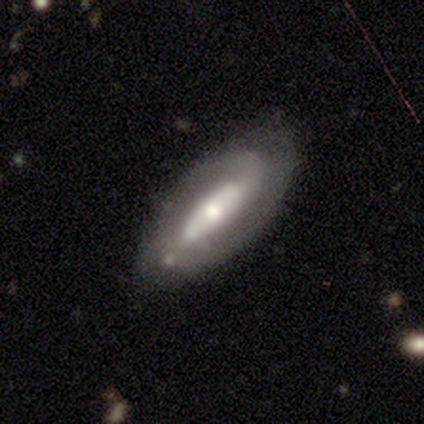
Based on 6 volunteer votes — Overall: featured or disk (83%). Edge-on disk: no (80%). Bar: strong (50%; weak 25%). Spiral arms: yes (100%). Spiral arm count: 2 (75%). Spiral winding: medium (75%). Bulge size: moderate (50%, tied with small). Merging: none (50%; minor disturbance 33%).